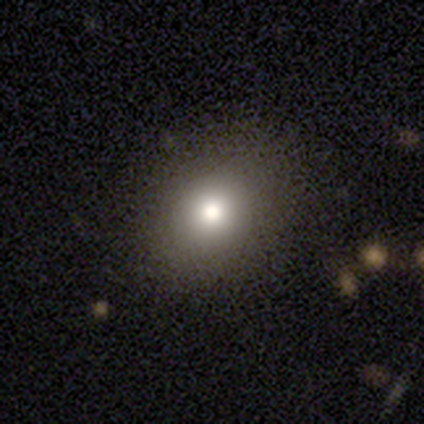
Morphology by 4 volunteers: Q: Smooth or featured?
A: smooth (100%)
Q: How rounded?
A: round (50%); tied with: in between (50%)
Q: Merging?
A: none (100%)